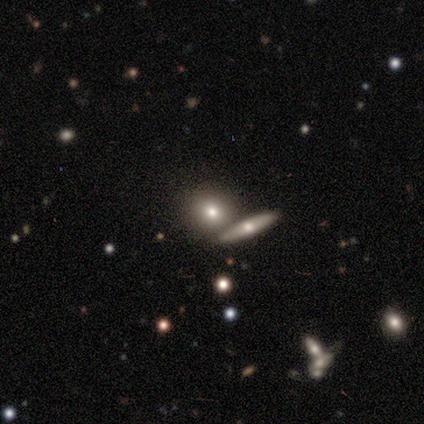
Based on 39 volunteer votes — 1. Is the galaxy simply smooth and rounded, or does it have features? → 51% smooth, 33% featured or disk, 15% star or artifact.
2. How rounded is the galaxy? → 65% round, 25% in between, 10% cigar-shaped.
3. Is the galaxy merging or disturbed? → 76% none, 18% merger, 6% minor disturbance, 0% major disturbance.